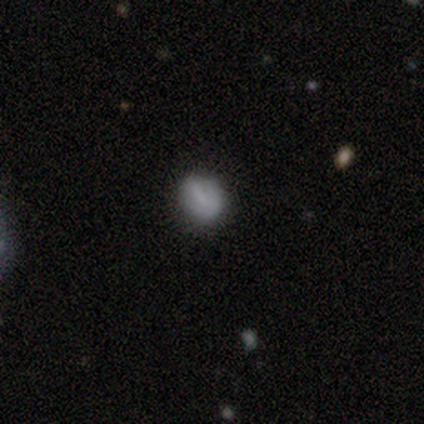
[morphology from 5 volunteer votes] Overall: smooth (80%). How rounded: round (50%, tied with in between). Merging: none (100%).